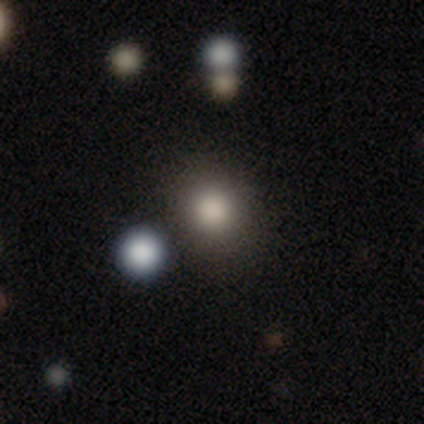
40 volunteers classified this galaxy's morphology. Smooth or featured?
  - smooth: 78% *
  - star or artifact: 12%
  - featured or disk: 10%
How rounded?
  - round: 81% *
  - in between: 13%
  - cigar-shaped: 6%
Merging?
  - none: 83% *
  - minor disturbance: 14%
  - major disturbance: 3%
  - merger: 0%